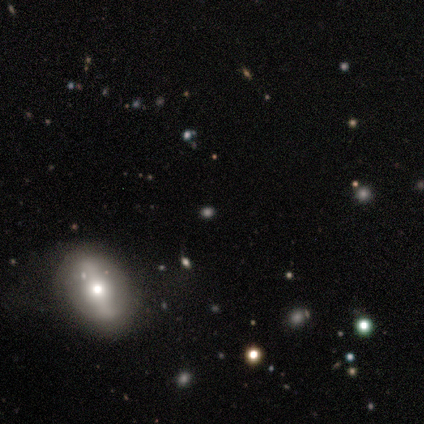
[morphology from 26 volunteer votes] Smooth or featured: smooth — 58% (featured or disk — 23%)
How rounded: in between — 60% (round — 40%)
Merging: none — 95% (minor disturbance — 5%)